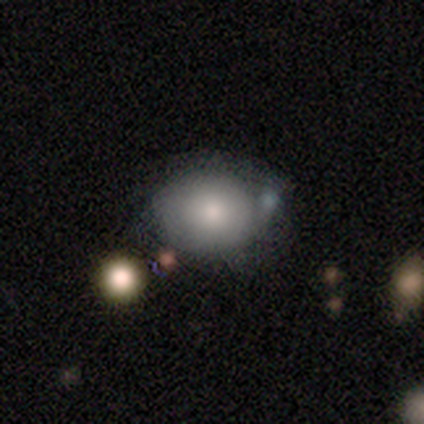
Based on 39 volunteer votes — smooth-or-featured: smooth: 72% | featured or disk: 21% | star or artifact: 8%
  how-rounded: round: 54% | in between: 46% | cigar-shaped: 0%
  merging: none: 44% | minor disturbance: 11% | merger: 11% | major disturbance: 8%